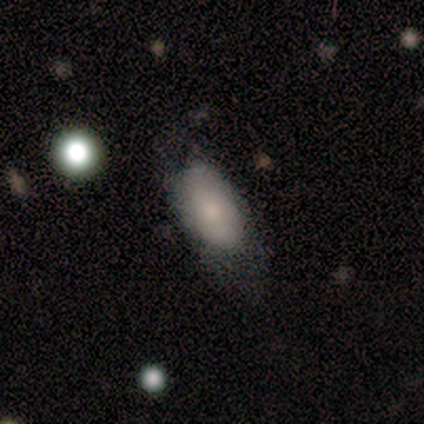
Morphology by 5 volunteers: This appears to be a smooth galaxy with no disk features (60%) that is in between round and cigar-shaped (100%). Merging: none (60%).